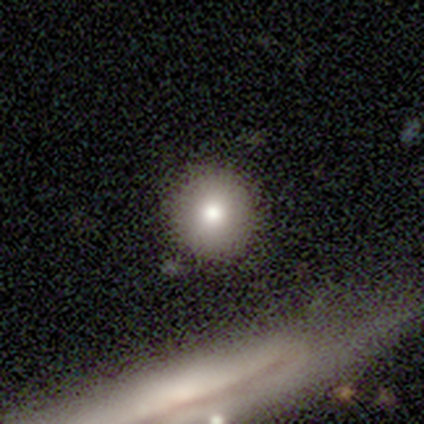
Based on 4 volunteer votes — Smooth or featured: smooth — 100%
How rounded: round — 100%
Merging: none — 100%